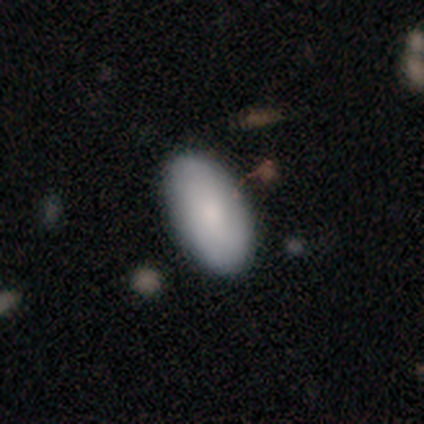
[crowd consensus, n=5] Consensus on every question: smooth or featured — smooth (100%); how rounded — in between (100%); merging — none (100%).